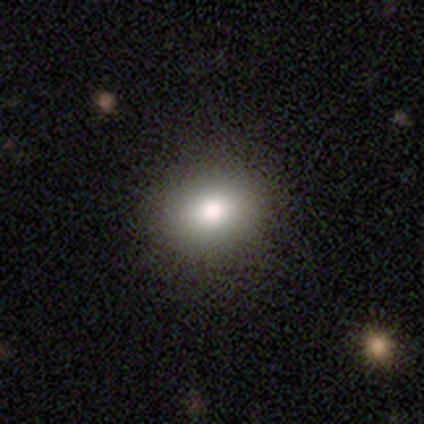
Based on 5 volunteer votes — This is clearly a smooth galaxy (100%). How rounded: likely round (60%). Merging: clearly none (100%).